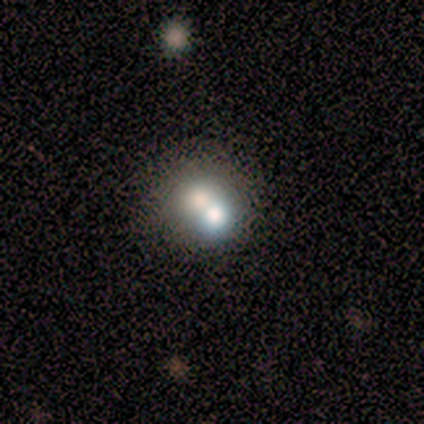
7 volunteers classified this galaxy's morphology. type=featured or disk (43%, tied with star or artifact); edge-on=no (100%); bar=no (100%); spiral arms=no (100%); bulge=dominant (33%, tied with large and moderate); merging=none (50%, tied with merger).